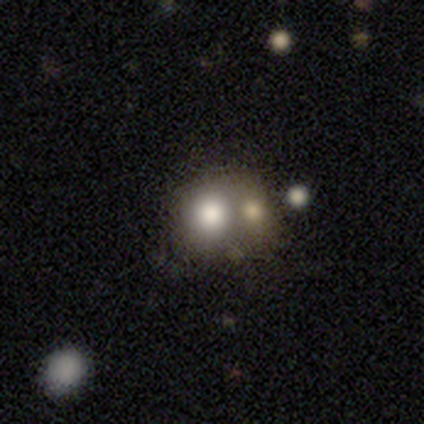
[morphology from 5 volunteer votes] A smooth galaxy with no disk features (80%) that is round (100%). Merging: merger (60%).